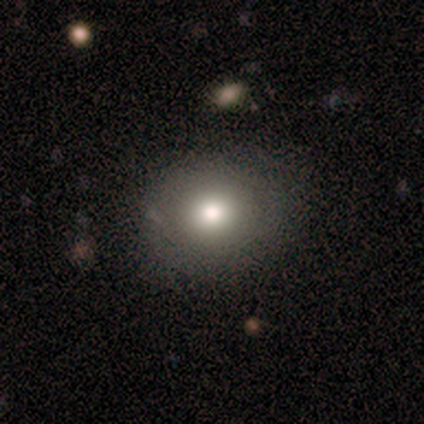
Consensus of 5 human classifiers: A smooth galaxy with no disk features (60%) that is round (67%).

Vote fractions:
- Smooth or featured? smooth: 60% / featured or disk: 40% / star or artifact: 0%
- How rounded? round: 67% / in between: 33% / cigar-shaped: 0%
- Merging? none: 80% / major disturbance: 20% / minor disturbance: 0% / merger: 0%